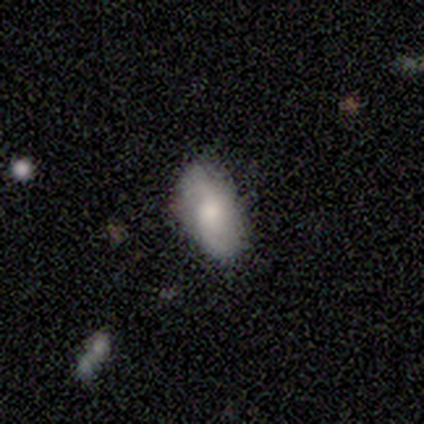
Overall: smooth (60%; featured or disk 40%). How rounded: in between (100%). Merging: none (80%).